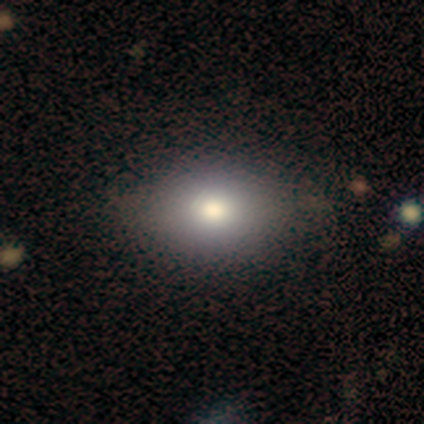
Q: Smooth or featured?
A: smooth (83%); runner-up: star or artifact (17%)
Q: How rounded?
A: in between (60%); runner-up: round (40%)
Q: Merging?
A: none (100%)